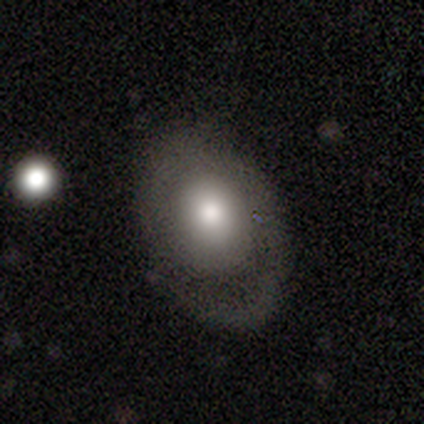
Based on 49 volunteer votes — smooth_or_featured: smooth (p=0.53) [alt: featured or disk p=0.43]
how_rounded: in between (p=0.81) [alt: round p=0.19]
merging: none (p=0.70) [alt: major disturbance p=0.17]